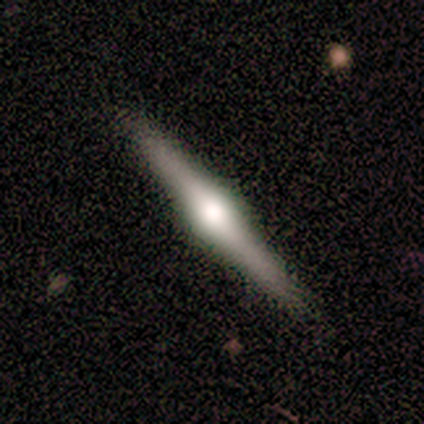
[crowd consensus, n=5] Overall: featured or disk (80%). Edge-on disk: yes (100%). Edge-on bulge: rounded (100%). Merging: none (100%).